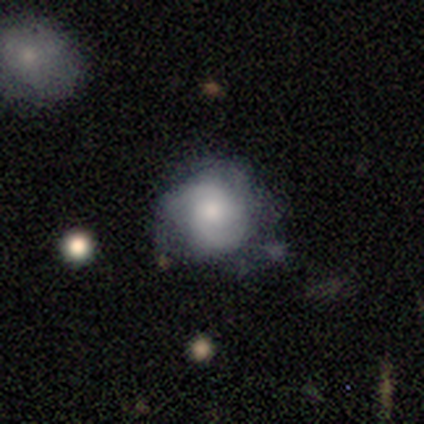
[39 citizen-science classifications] Smooth or featured? 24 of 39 (62%) said featured or disk. Edge-on disk? 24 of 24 (100%) said no. Bar? 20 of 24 (83%) said no. Spiral arms? 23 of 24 (96%) said yes. Spiral winding? 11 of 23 (48%) said medium. Spiral arm count? 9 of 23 (39%, tied with can't tell) said 2. Bulge size? 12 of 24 (50%) said moderate. Merging? 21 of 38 (55%) said none.